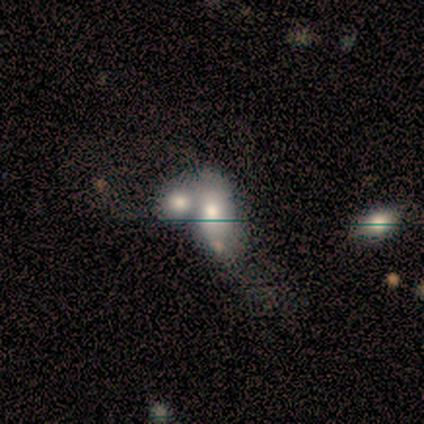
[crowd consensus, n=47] A smooth galaxy with no disk features (47%) that is in between round and cigar-shaped (91%). Merging: merger (76%).